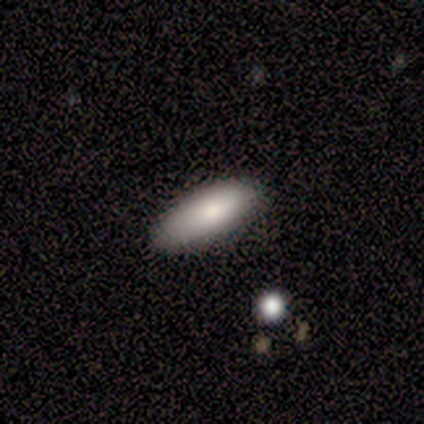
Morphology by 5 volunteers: Smooth or featured? smooth (100%)
How rounded? in between (100%)
Merging? none (80%)